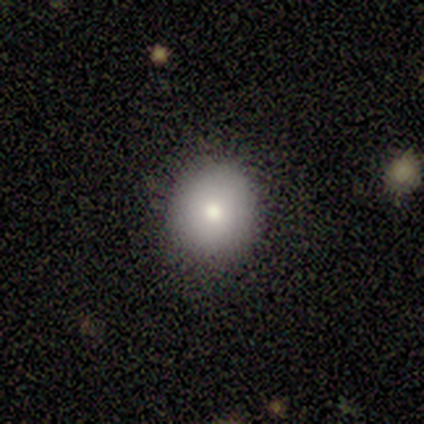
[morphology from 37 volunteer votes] Smooth or featured?
  - smooth: 84% *
  - featured or disk: 11%
  - star or artifact: 5%
How rounded?
  - round: 68% *
  - in between: 32%
  - cigar-shaped: 0%
Merging?
  - none: 80% *
  - minor disturbance: 14%
  - major disturbance: 6%
  - merger: 0%